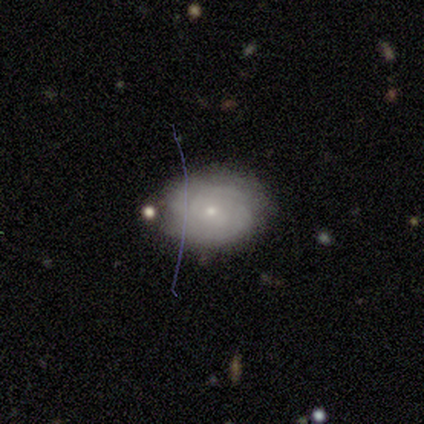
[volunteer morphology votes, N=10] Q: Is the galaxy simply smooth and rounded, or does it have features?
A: featured or disk — 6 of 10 (60%).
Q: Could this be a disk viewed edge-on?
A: no — 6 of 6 (100%).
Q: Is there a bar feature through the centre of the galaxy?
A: no — 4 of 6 (67%).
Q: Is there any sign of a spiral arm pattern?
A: yes — 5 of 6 (83%).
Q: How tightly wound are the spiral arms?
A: tight — 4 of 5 (80%).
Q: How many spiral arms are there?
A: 2 — 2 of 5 (40%, tied with can't tell).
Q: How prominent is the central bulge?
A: small — 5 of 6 (83%).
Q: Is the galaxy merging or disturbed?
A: none — 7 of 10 (70%).